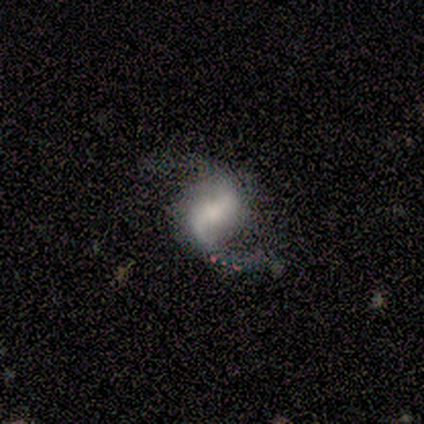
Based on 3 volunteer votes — smooth_or_featured: featured or disk (p=1.00)
disk_edge_on: no (p=1.00)
bar: strong (p=0.67) [alt: weak p=0.33]
has_spiral_arms: yes (p=0.67) [alt: no p=0.33]
spiral_winding: loose (p=1.00)
spiral_arm_count: 2 (p=1.00)
bulge_size: large (p=0.33) [tied with: small p=0.33, none p=0.33]
merging: none (p=0.67) [alt: minor disturbance p=0.33]